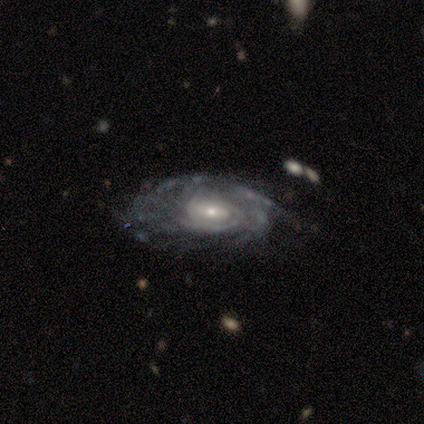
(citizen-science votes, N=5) Smooth or featured?
  - featured or disk: 100% *
  - smooth: 0%
  - star or artifact: 0%
Edge-on disk?
  - no: 100% *
  - yes: 0%
Bar?
  - no: 60% *
  - weak: 40%
  - strong: 0%
Spiral arms?
  - yes: 100% *
  - no: 0%
Spiral winding?
  - tight: 100% *
  - medium: 0%
  - loose: 0%
Spiral arm count?
  - can't tell: 60% *
  - 2: 20%
  - 3: 20%
  - 1: 0%
  - 4: 0%
  - more than 4: 0%
Bulge size?
  - small: 80% *
  - moderate: 20%
  - dominant: 0%
  - large: 0%
  - none: 0%
Merging?
  - none: 80% *
  - minor disturbance: 20%
  - major disturbance: 0%
  - merger: 0%